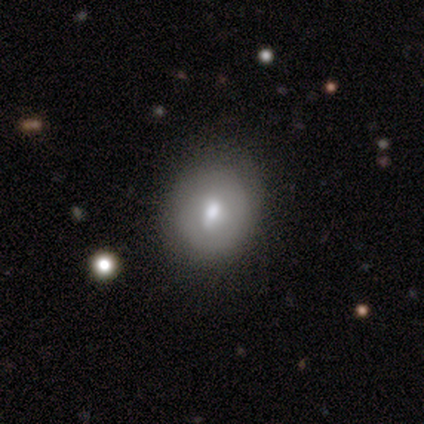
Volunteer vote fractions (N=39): Overall: smooth (67%). How rounded: round (50%; in between 46%). Merging: none (69%).